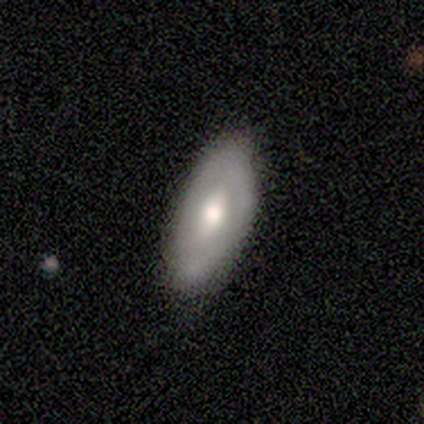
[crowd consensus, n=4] featured or disk 50%, smooth 25%, star or artifact 25%. Down the decision tree: edge-on disk — no (100%); bar — weak (50%, tied with no); spiral arms — no (100%); bulge size — moderate (50%, tied with small); merging — none (100%).